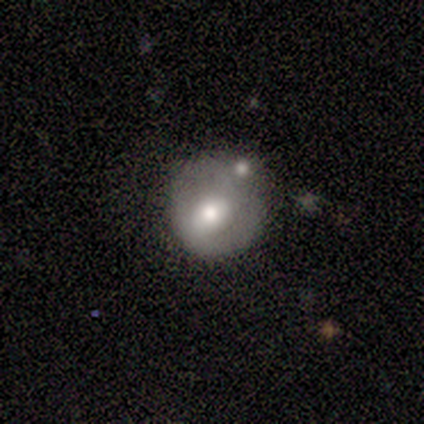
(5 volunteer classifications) A smooth galaxy with no disk features (60%) that is round (67%). Merging: minor disturbance (40%, tied with merger).